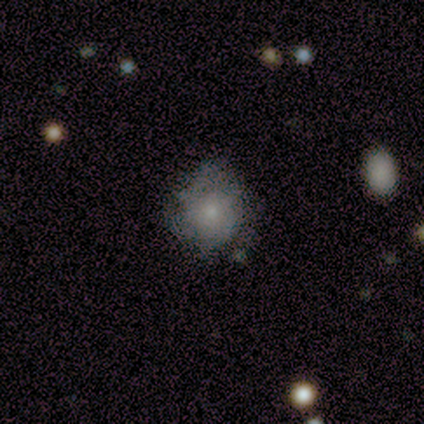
This is possibly a smooth galaxy (46%). How rounded: clearly round (100%). Merging: likely none (73%).